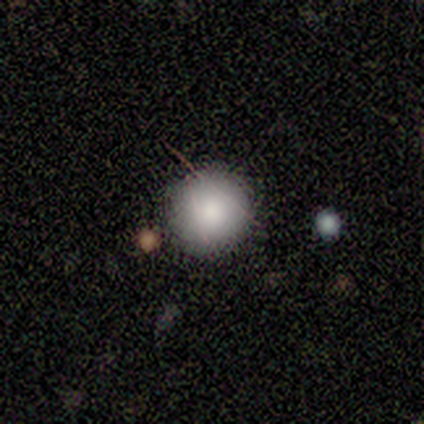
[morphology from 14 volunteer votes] This appears to be a smooth galaxy with no disk features (86%) that is round (92%). Merging: none (83%).